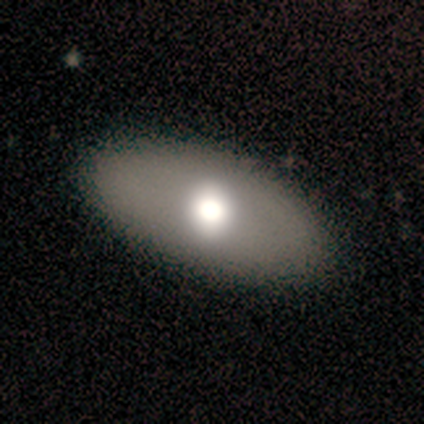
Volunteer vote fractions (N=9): Volunteers were most divided on "merging": none: 62%, minor disturbance: 25%, merger: 12%, major disturbance: 0%. More confident: how rounded — in between (100%); smooth or featured — smooth (67%).